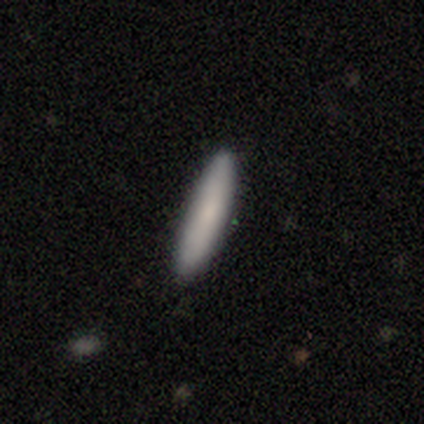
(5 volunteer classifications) smooth_or_featured: smooth (p=1.00)
how_rounded: cigar-shaped (p=1.00)
merging: none (p=0.80) [alt: minor disturbance p=0.20]